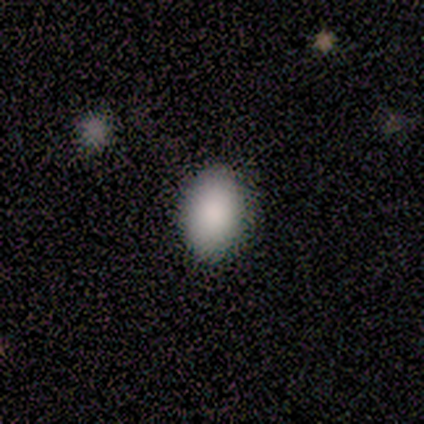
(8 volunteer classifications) smooth_or_featured: smooth (p=0.88) [alt: star or artifact p=0.12]
how_rounded: in between (p=0.86) [alt: round p=0.14]
merging: none (p=1.00)